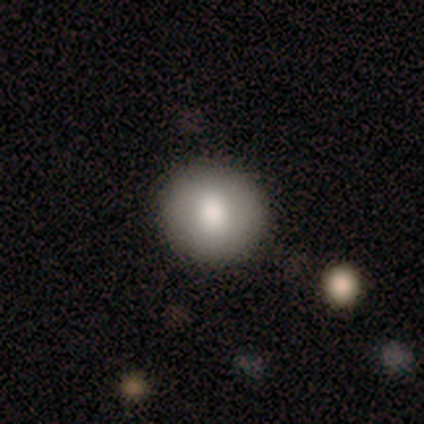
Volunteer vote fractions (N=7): Q: Smooth or featured?
A: smooth (86%); runner-up: featured or disk (14%)
Q: How rounded?
A: round (83%); runner-up: in between (17%)
Q: Merging?
A: none (86%); runner-up: minor disturbance (14%)